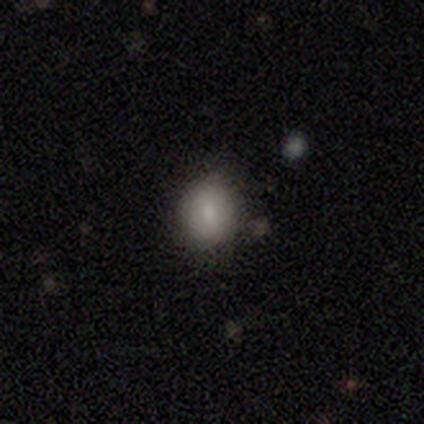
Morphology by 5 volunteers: smooth_or_featured: smooth (p=1.00)
how_rounded: round (p=0.60) [alt: in between p=0.40]
merging: none (p=1.00)